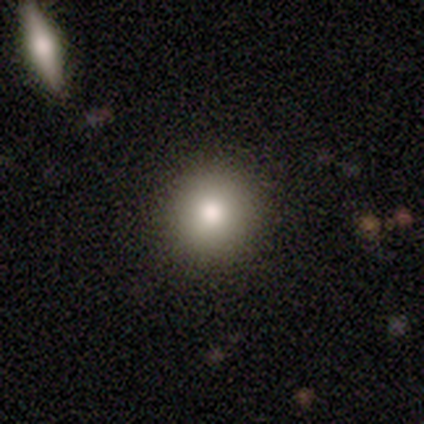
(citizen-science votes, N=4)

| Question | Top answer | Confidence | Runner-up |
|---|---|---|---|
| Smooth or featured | smooth | 100% | — |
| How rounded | round | 100% | — |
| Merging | none | 75% | minor disturbance (25%) |